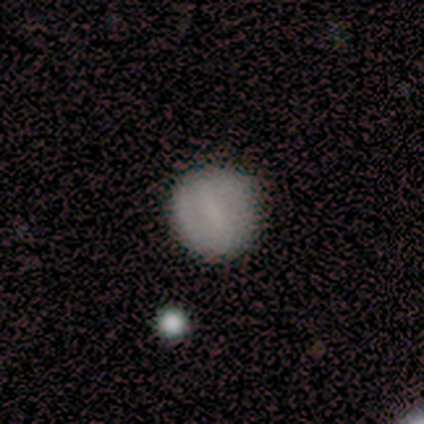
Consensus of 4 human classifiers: smooth_or_featured: featured or disk (p=0.50) [alt: smooth p=0.25]
disk_edge_on: no (p=1.00)
bar: strong (p=0.50) [tied with: weak p=0.50]
has_spiral_arms: yes (p=1.00)
spiral_winding: tight (p=0.50) [tied with: medium p=0.50]
spiral_arm_count: 2 (p=1.00)
bulge_size: small (p=0.50) [tied with: none p=0.50]
merging: none (p=0.67) [alt: minor disturbance p=0.33]